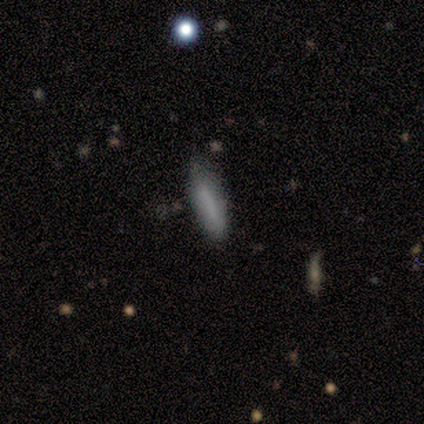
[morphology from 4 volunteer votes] Smooth or featured?
  - smooth: 100% *
  - featured or disk: 0%
  - star or artifact: 0%
How rounded?
  - cigar-shaped: 75% *
  - in between: 25%
  - round: 0%
Merging?
  - none: 100% *
  - minor disturbance: 0%
  - major disturbance: 0%
  - merger: 0%